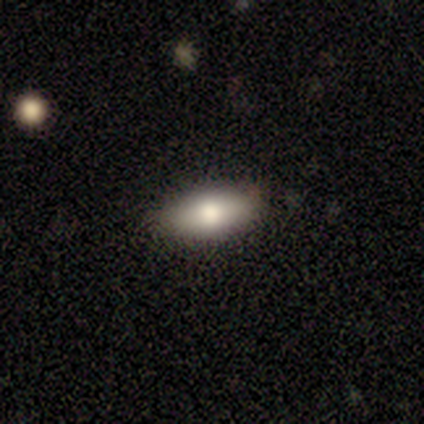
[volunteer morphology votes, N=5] smooth_or_featured: smooth (p=1.00)
how_rounded: in between (p=1.00)
merging: none (p=1.00)